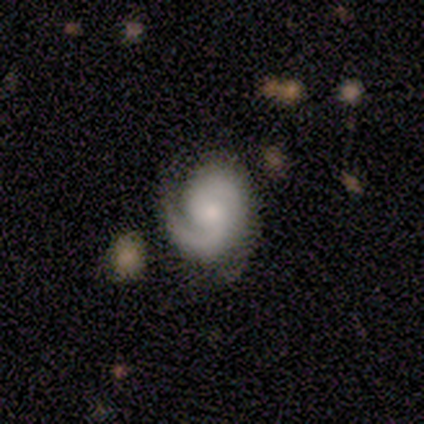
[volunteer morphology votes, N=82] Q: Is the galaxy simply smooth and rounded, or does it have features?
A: featured or disk — 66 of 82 (80%).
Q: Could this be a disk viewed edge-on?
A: no — 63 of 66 (95%).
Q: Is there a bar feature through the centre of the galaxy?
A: no — 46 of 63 (73%).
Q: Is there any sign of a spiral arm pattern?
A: yes — 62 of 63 (98%).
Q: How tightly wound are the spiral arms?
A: tight — 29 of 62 (47%).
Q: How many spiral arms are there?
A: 2 — 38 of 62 (61%).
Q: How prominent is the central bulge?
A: moderate — 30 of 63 (48%).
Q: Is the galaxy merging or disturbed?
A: none — 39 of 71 (55%).